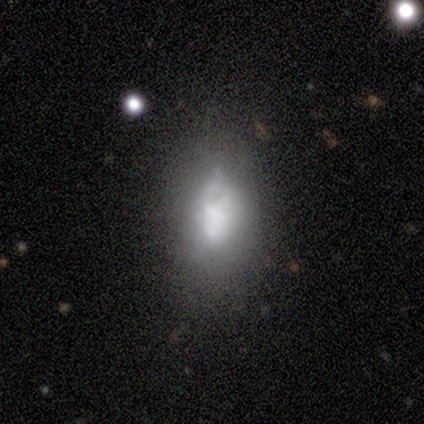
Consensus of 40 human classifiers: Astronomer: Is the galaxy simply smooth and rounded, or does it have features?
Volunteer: smooth — 48%, tied with featured or disk at 48%.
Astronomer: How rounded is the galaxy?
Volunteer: in between — 89%.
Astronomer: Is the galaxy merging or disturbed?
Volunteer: minor disturbance — 45% (runner-up: none, 29%).